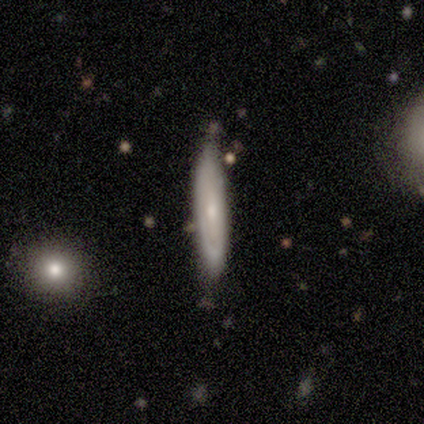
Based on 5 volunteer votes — smooth_or_featured: featured or disk (p=0.60) [alt: smooth p=0.40]
disk_edge_on: yes (p=1.00)
edge_on_bulge: rounded (p=1.00)
merging: none (p=0.60) [alt: minor disturbance p=0.20]